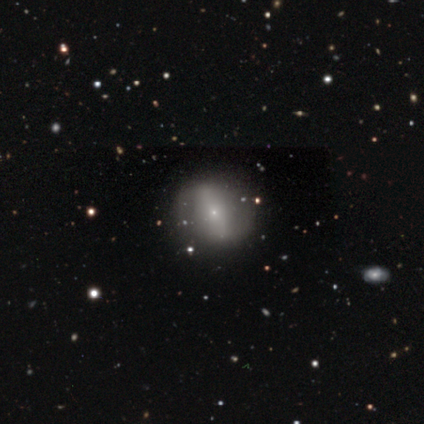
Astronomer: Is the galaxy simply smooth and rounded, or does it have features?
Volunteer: smooth — 100%.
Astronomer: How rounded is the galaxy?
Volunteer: round — 100%.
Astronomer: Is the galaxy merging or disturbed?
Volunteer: none — 50%, tied with minor disturbance at 50%.